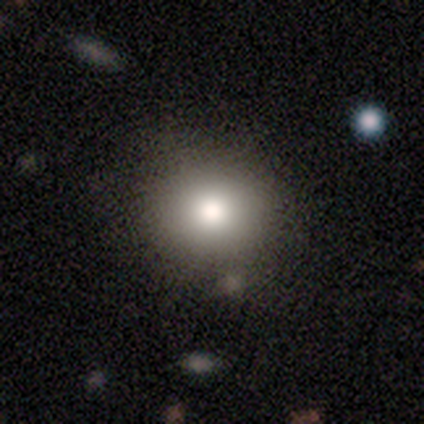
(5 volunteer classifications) Morphology: type=smooth (100%); roundness=round (80%); merging=none (100%).